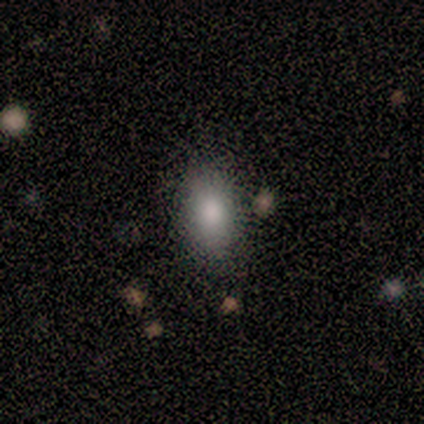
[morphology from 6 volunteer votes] Smooth or featured? smooth (83%)
How rounded? in between (80%)
Merging? none (100%)